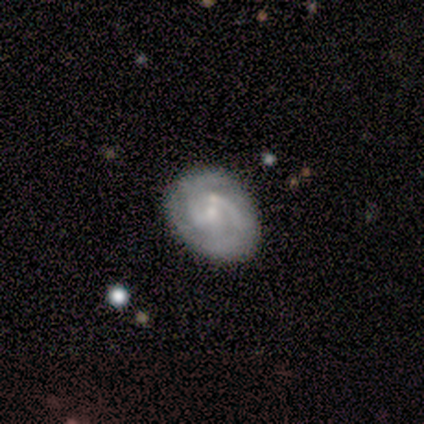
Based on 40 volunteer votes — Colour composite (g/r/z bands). It shows a featured or disk galaxy (68%) with no bar (60%), 2 (78%) medium (48%) spiral arms (92%) and a small central bulge (76%). Merging: none (79%).